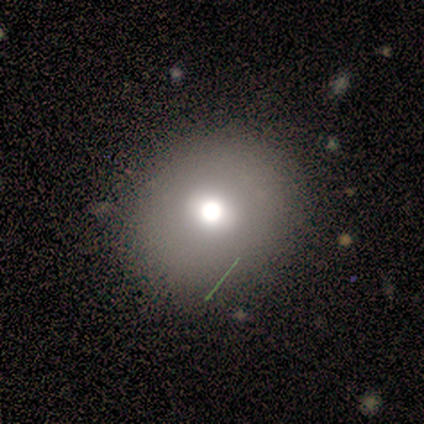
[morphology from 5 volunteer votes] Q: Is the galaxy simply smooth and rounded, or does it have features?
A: smooth — 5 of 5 (100%).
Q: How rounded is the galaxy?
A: round — 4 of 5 (80%).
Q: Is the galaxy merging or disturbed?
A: none — 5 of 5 (100%).